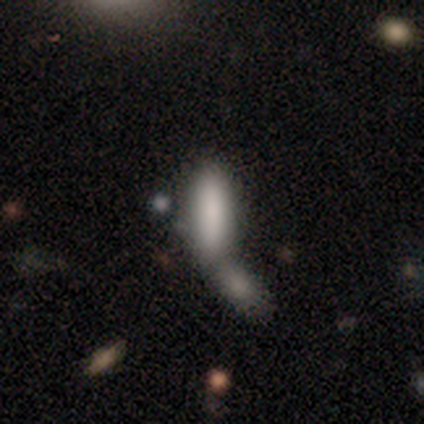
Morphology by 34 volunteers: This appears to be a smooth galaxy with no disk features (91%) that is in between round and cigar-shaped (52%). Merging: merger (82%).